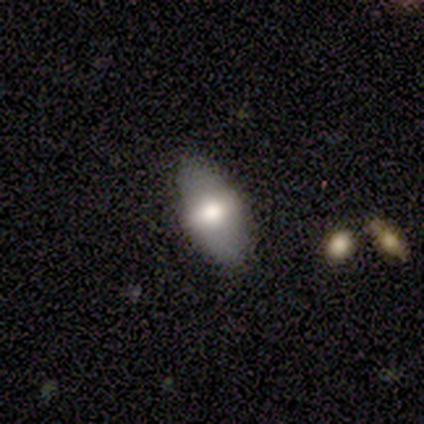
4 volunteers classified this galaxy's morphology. smooth-or-featured: smooth: 50% (tied) | featured or disk: 50% (tied) | star or artifact: 0%
  how-rounded: in between: 100% | round: 0% | cigar-shaped: 0%
  merging: none: 75% | minor disturbance: 25% | major disturbance: 0% | merger: 0%